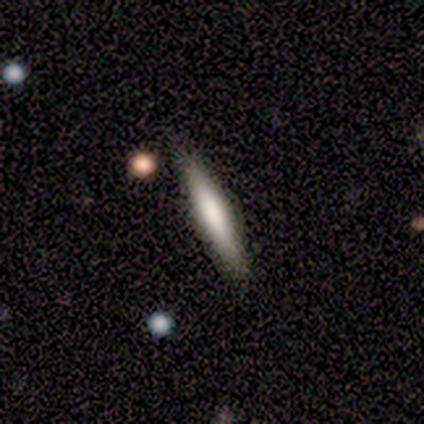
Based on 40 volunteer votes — This is possibly a smooth galaxy (57%). How rounded: clearly cigar-shaped (91%). Merging: clearly none (92%).